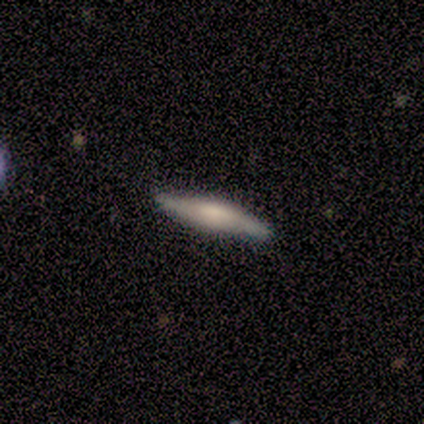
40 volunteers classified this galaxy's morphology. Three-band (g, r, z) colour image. It shows a featured or disk galaxy (57%) viewed edge-on (74%) with a boxy central bulge (53%). Merging: none (82%).